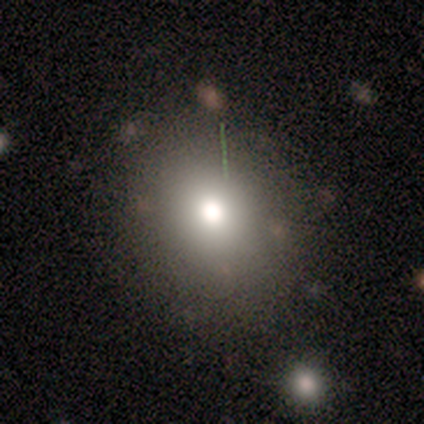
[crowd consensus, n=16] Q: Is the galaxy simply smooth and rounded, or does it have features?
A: smooth — 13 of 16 (81%).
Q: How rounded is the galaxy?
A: round — 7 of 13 (54%).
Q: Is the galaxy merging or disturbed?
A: none — 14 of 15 (93%).